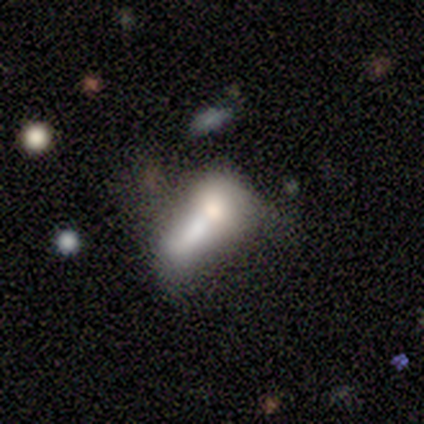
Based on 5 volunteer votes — Overall: smooth (100%). How rounded: in between (60%; round 20%). Merging: merger (100%).